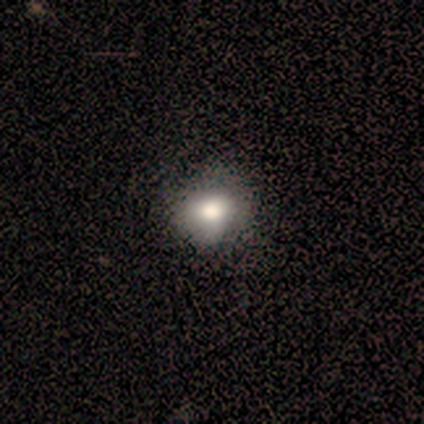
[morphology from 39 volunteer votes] A smooth galaxy with no disk features (72%) that is round (64%).

Vote fractions:
- Smooth or featured? smooth: 72% / featured or disk: 18% / star or artifact: 10%
- How rounded? round: 64% / in between: 36% / cigar-shaped: 0%
- Merging? none: 46% / minor disturbance: 14% / major disturbance: 3% / merger: 3%